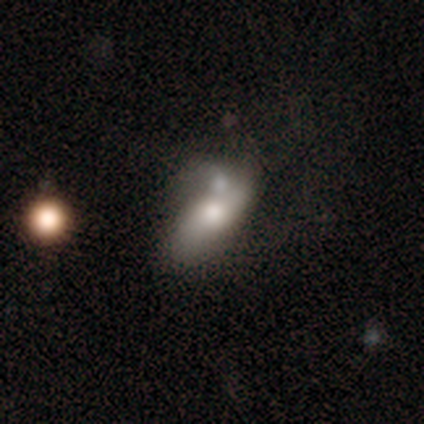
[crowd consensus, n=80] This is likely a smooth galaxy (60%). How rounded: clearly in between (94%). Merging: marginally merger (28%).